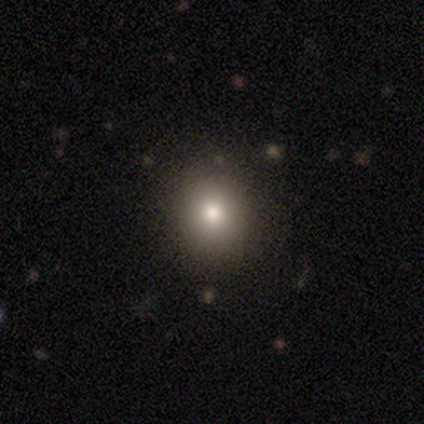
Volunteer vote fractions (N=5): Overall: smooth (40%, tied with star or artifact). How rounded: round (100%). Merging: none (100%).